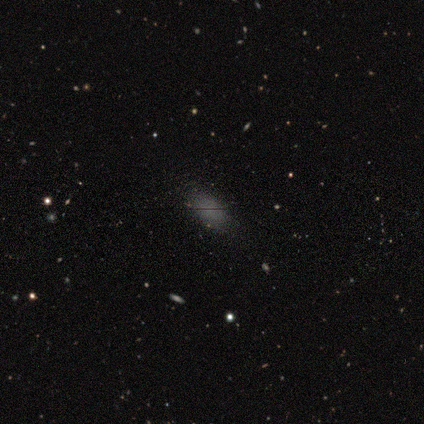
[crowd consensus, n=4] This appears to be a smooth galaxy with no disk features (100%) that is in between round and cigar-shaped (100%). Merging: none (50%, tied with minor disturbance).